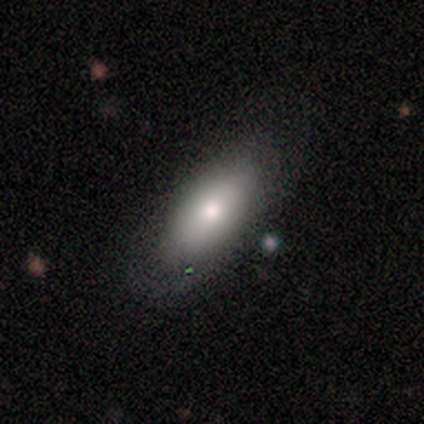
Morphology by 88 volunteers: Volunteers were most divided on "merging": none: 60%, minor disturbance: 27%, major disturbance: 11%, merger: 1%. More confident: how rounded — in between (79%); smooth or featured — smooth (77%).